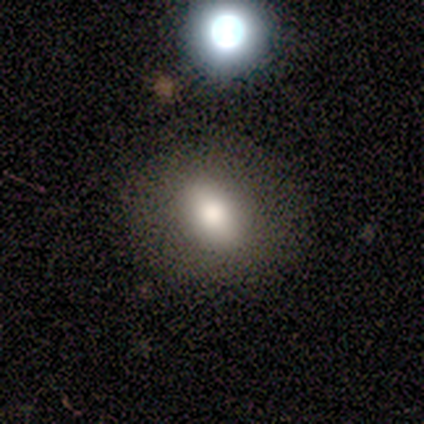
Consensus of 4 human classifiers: This is likely a smooth galaxy (75%). How rounded: likely round (67%). Merging: likely none (67%).